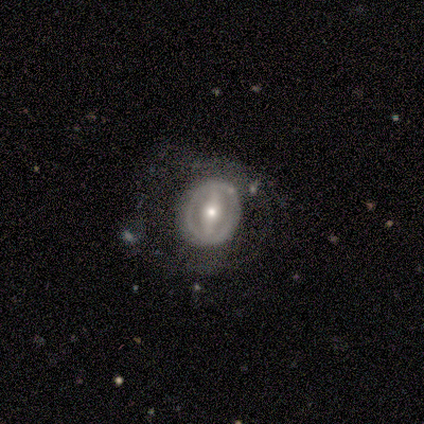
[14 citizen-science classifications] Volunteers were most divided on "bulge size": small: 45%, moderate: 27%, large: 18%, none: 9%, dominant: 0%. More confident: edge-on disk — no (100%); spiral arms — no (91%); smooth or featured — featured or disk (79%); bar — strong (73%); merging — none (57%).